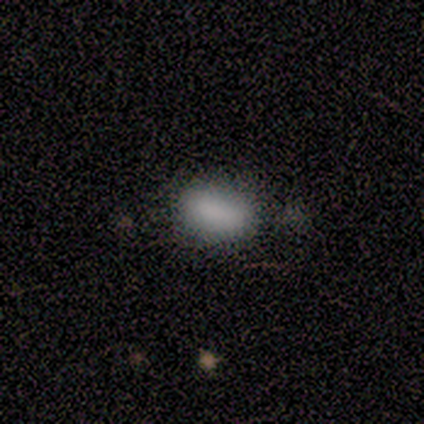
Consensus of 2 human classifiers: Q: Smooth or featured?
A: smooth (100%)
Q: How rounded?
A: in between (100%)
Q: Merging?
A: none (100%)